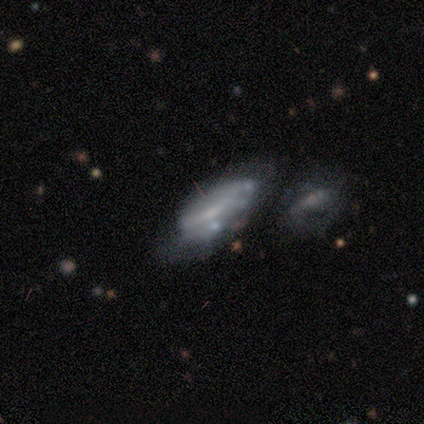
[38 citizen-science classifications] A featured or disk galaxy (63%) with a weak bar (52%), no spiral arms (57%) and no central bulge (57%). Merging: none (41%).